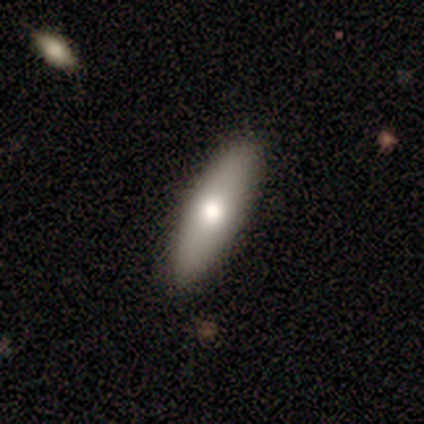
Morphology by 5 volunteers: smooth-or-featured: smooth: 100% | featured or disk: 0% | star or artifact: 0%
  how-rounded: in between: 60% | cigar-shaped: 40% | round: 0%
  merging: none: 80% | minor disturbance: 20% | major disturbance: 0% | merger: 0%